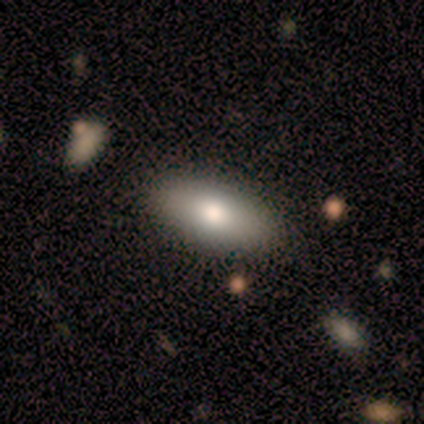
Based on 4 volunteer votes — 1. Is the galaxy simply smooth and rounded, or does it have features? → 75% smooth, 25% featured or disk, 0% star or artifact.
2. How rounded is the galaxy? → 100% in between, 0% round, 0% cigar-shaped.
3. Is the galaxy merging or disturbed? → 50% none, 25% minor disturbance, 25% merger, 0% major disturbance.